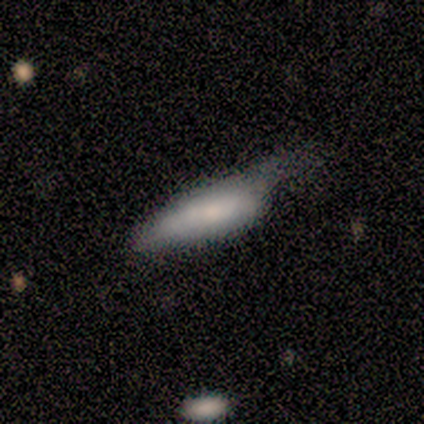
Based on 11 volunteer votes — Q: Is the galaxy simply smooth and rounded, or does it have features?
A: smooth — 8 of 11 (73%).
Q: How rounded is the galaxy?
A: cigar-shaped — 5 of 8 (62%).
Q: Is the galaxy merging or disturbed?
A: minor disturbance — 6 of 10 (60%).